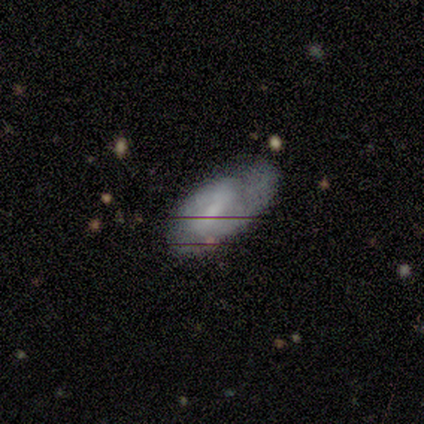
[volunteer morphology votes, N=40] Smooth or featured? 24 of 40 (60%) said featured or disk. Edge-on disk? 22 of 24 (92%) said no. Bar? 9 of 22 (41%) said weak. Spiral arms? 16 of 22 (73%) said yes. Spiral winding? 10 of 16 (62%) said tight. Spiral arm count? 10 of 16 (62%) said 2. Bulge size? 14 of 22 (64%) said small. Merging? 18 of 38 (47%) said minor disturbance.